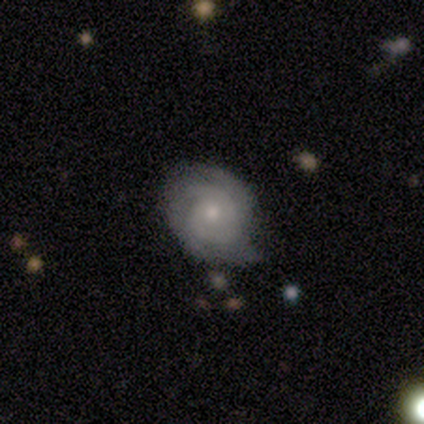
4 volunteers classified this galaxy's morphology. Smooth or featured? featured or disk (100%)
Edge-on disk? no (100%)
Bar? no (100%)
Spiral arms? yes (75%)
Spiral winding? tight (100%)
Spiral arm count? 2 (67%)
Bulge size? moderate (100%)
Merging? none (50%)